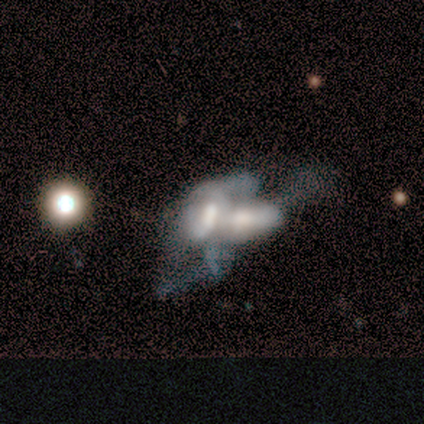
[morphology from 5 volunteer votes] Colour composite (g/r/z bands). It shows a smooth galaxy with no disk features (60%) that is in between round and cigar-shaped (100%). Merging: merger (100%).